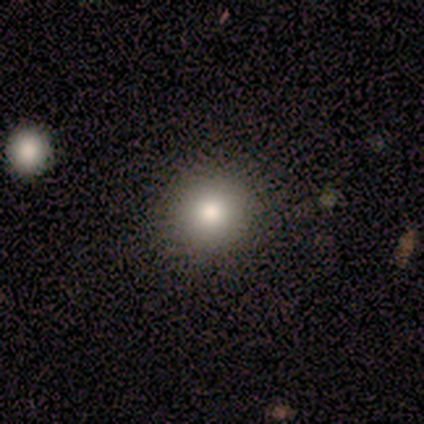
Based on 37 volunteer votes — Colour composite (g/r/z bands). It shows a smooth galaxy with no disk features (68%) that is round (88%). Merging: none (83%).